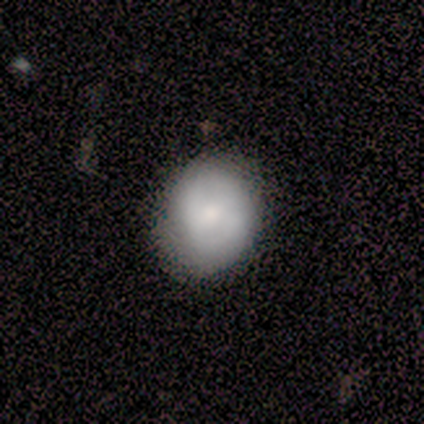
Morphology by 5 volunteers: smooth_or_featured: smooth (p=0.80) [alt: featured or disk p=0.20]
how_rounded: round (p=1.00)
merging: none (p=0.80) [alt: minor disturbance p=0.20]